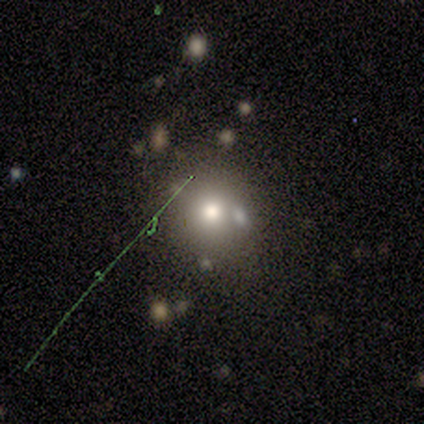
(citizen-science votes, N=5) Volunteers were most divided on "how rounded": round: 67%, in between: 33%, cigar-shaped: 0%. More confident: merging — none (75%); smooth or featured — smooth (60%).